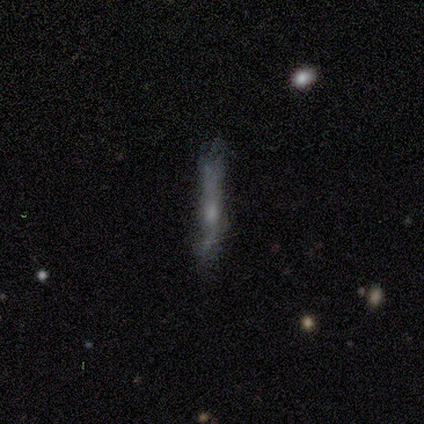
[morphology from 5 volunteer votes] A featured or disk galaxy (60%) viewed edge-on (67%) with a rounded central bulge (100%).

Vote fractions:
- Smooth or featured? featured or disk: 60% / smooth: 20% / star or artifact: 20%
- Edge-on disk? yes: 67% / no: 33%
- Edge-on bulge? rounded: 100% / boxy: 0% / none: 0%
- Merging? none: 100% / minor disturbance: 0% / major disturbance: 0% / merger: 0%